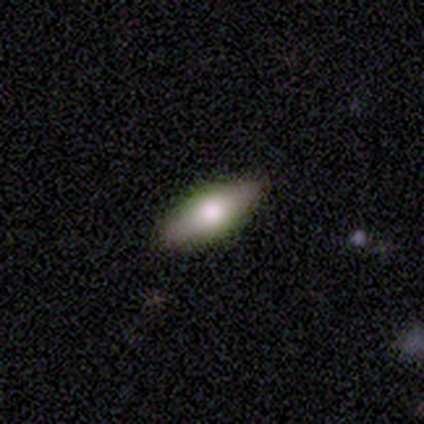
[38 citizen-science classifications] Smooth or featured? 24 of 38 (63%) said smooth. How rounded? 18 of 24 (75%) said in between. Merging? 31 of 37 (84%) said none.